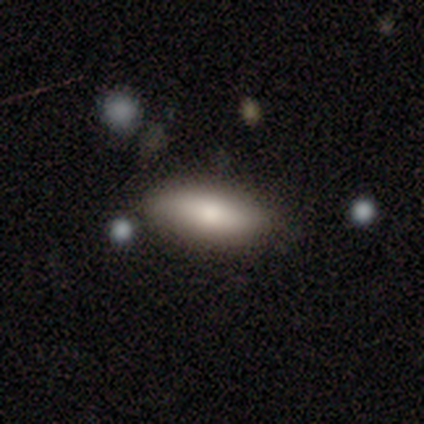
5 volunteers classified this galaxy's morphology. Q: Smooth or featured?
A: smooth (100%)
Q: How rounded?
A: in between (60%); runner-up: cigar-shaped (40%)
Q: Merging?
A: none (100%)